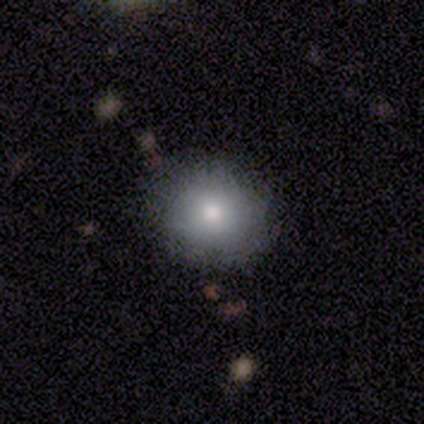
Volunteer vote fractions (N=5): smooth_or_featured: smooth (p=0.80) [alt: star or artifact p=0.20]
how_rounded: round (p=0.75) [alt: in between p=0.25]
merging: none (p=1.00)